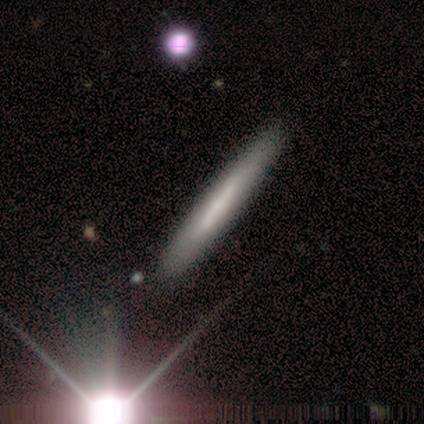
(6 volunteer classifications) Volunteers were most divided on "smooth or featured": smooth: 67%, featured or disk: 33%, star or artifact: 0%. More confident: how rounded — cigar-shaped (100%); merging — none (100%).